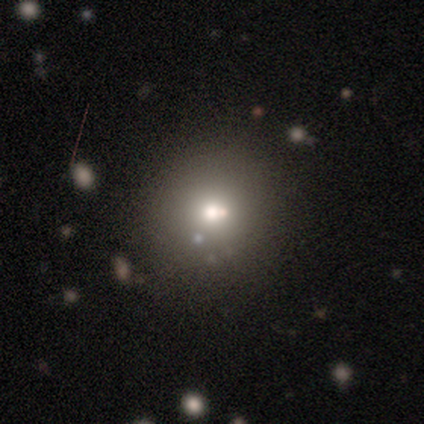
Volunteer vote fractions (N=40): Smooth or featured: smooth — 52% (star or artifact — 32%)
How rounded: round — 81% (in between — 19%)
Merging: none — 78% (minor disturbance — 19%)